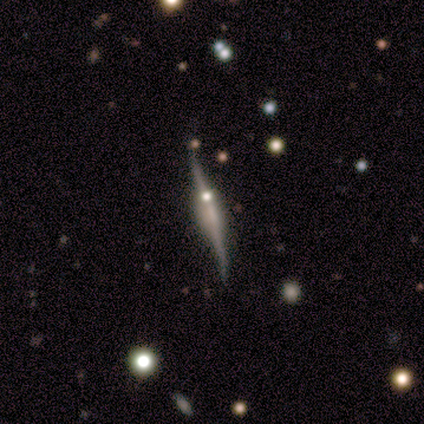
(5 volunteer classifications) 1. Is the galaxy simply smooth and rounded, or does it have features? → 100% featured or disk, 0% smooth, 0% star or artifact.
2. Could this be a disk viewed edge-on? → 60% yes, 40% no.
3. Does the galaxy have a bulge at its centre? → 67% boxy, 33% rounded, 0% none.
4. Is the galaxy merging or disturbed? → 100% none, 0% minor disturbance, 0% major disturbance, 0% merger.